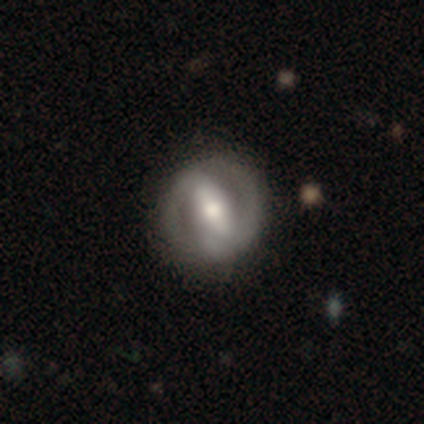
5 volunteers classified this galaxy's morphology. This is clearly a featured or disk galaxy (80%). It is clearly not viewed edge-on (100%). Bar: likely strong (75%). Spiral arm pattern: clearly yes (100%). Spiral arm count: likely 2 (75%). Spiral winding: possibly tight (50%). Central bulge: clearly moderate (100%). Merging: clearly none (100%).